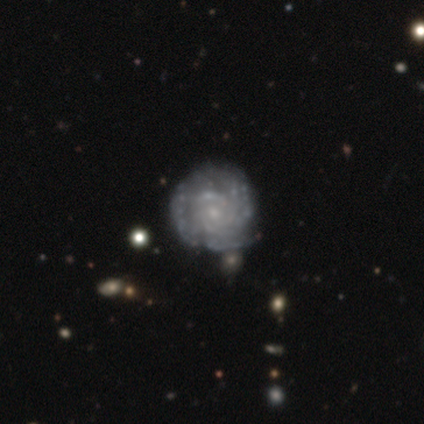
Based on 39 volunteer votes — A featured or disk galaxy (82%) with no bar (91%), tight (93%) spiral arms (84%) and a small central bulge (72%).

Vote fractions:
- Smooth or featured? featured or disk: 82% / smooth: 18% / star or artifact: 0%
- Edge-on disk? no: 100% / yes: 0%
- Bar? no: 91% / strong: 6% / weak: 3%
- Spiral arms? yes: 84% / no: 16%
- Spiral winding? tight: 93% / medium: 4% / loose: 4%
- Spiral arm count? can't tell: 52% / more than 4: 19% / 4: 15% / 3: 11% / 2: 4% / 1: 0%
- Bulge size? small: 72% / none: 16% / moderate: 12% / dominant: 0% / large: 0%
- Merging? none: 41% / minor disturbance: 15% / major disturbance: 5% / merger: 5%